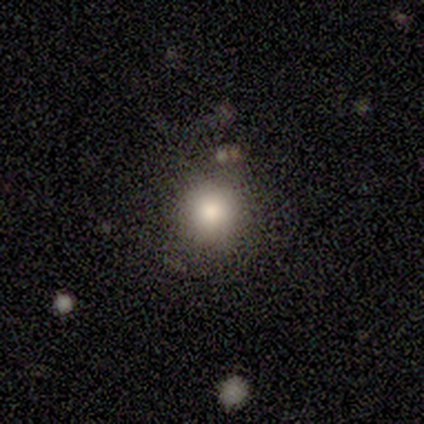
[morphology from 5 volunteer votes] This appears to be a smooth galaxy with no disk features (100%) that is round (100%). Merging: none (60%).